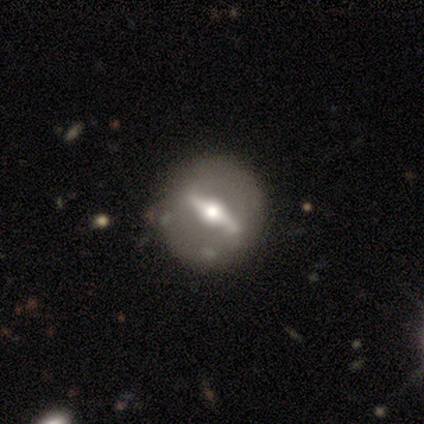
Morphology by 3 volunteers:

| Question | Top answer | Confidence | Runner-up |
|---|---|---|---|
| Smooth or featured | featured or disk | 67% | smooth (33%) |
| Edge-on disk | yes | 50% | tied: no (50%) |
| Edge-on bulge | rounded | 100% | — |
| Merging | none | 67% | major disturbance (33%) |